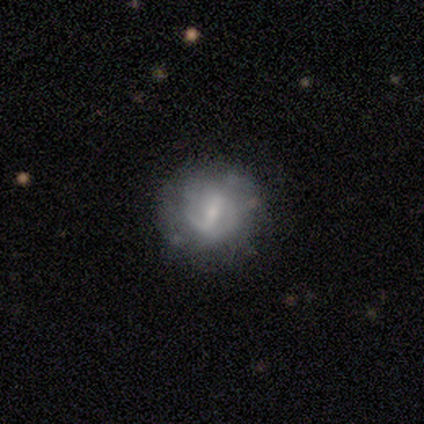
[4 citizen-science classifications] smooth-or-featured: featured or disk: 75% | smooth: 25% | star or artifact: 0%
  disk-edge-on: no: 100% | yes: 0%
    bar: weak: 67% | strong: 33% | no: 0%
    has-spiral-arms: yes: 67% | no: 33%
      spiral-winding: medium: 50% (tied) | loose: 50% (tied) | tight: 0%
      spiral-arm-count: can't tell: 100% | 1: 0% | 2: 0% | 3: 0% | 4: 0% | more than 4: 0%
    bulge-size: small: 100% | dominant: 0% | large: 0% | moderate: 0% | none: 0%
  merging: none: 100% | minor disturbance: 0% | major disturbance: 0% | merger: 0%